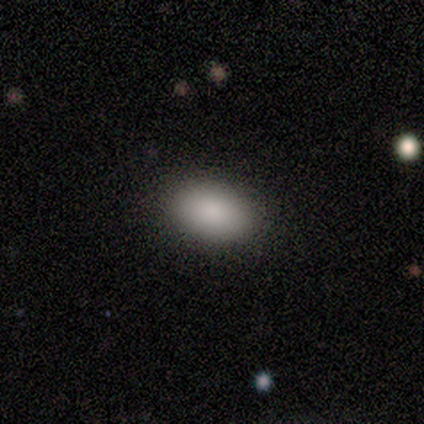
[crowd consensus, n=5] This is clearly a smooth galaxy (80%). How rounded: clearly in between (100%). Merging: clearly none (100%).